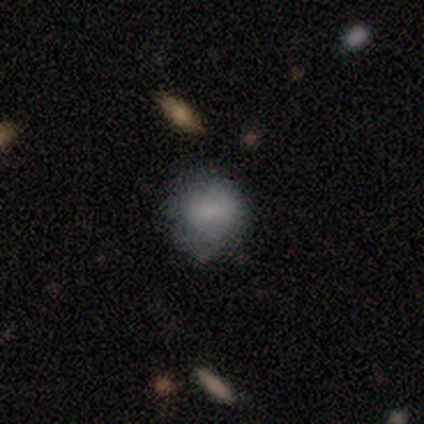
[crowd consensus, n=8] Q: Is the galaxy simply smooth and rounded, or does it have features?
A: smooth — 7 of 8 (88%).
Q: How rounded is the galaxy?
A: round — 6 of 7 (86%).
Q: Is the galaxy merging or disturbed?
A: none — 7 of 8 (88%).